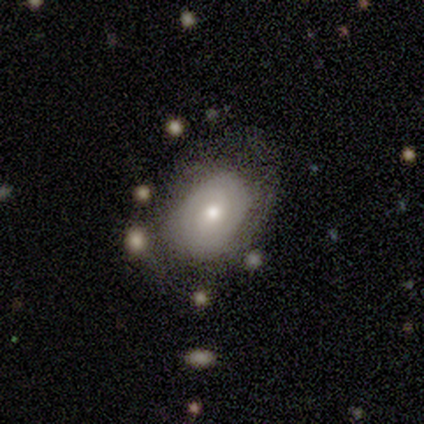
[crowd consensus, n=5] A smooth galaxy with no disk features (80%) that is in between round and cigar-shaped (75%).

Vote fractions:
- Smooth or featured? smooth: 80% / star or artifact: 20% / featured or disk: 0%
- How rounded? in between: 75% / round: 25% / cigar-shaped: 0%
- Merging? minor disturbance: 50% / none: 25% / major disturbance: 25% / merger: 0%